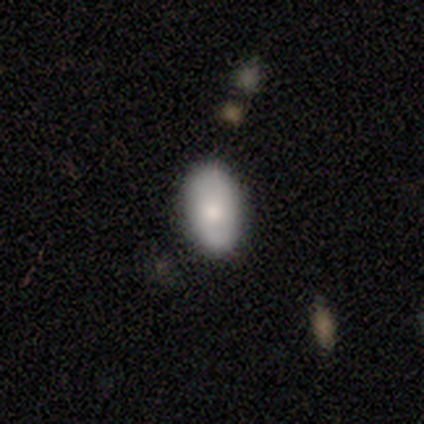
smooth 60%, featured or disk 40%, star or artifact 0%. Down the decision tree: how rounded — in between (67%); merging — none (80%).